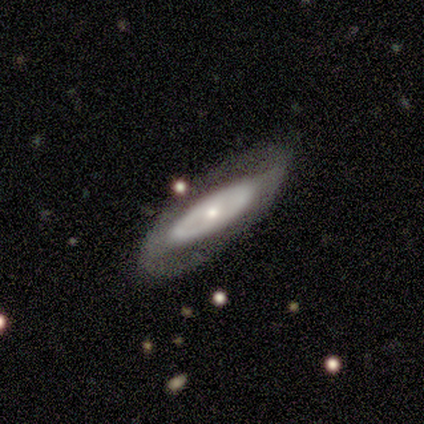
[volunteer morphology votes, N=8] type=featured or disk (75%); edge-on=no (100%); bar=no (100%); spiral arms=no (67%); bulge=small (67%); merging=none (75%).